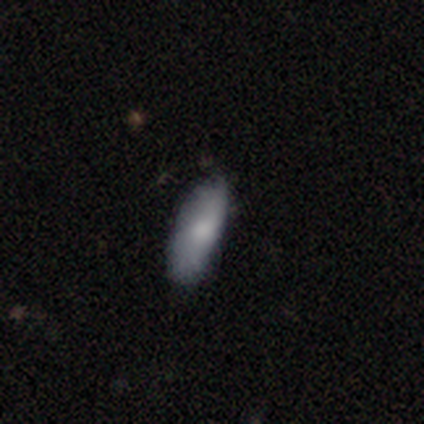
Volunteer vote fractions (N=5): smooth 80%, featured or disk 20%, star or artifact 0%. Down the decision tree: how rounded — in between (50%, tied with cigar-shaped); merging — none (80%).